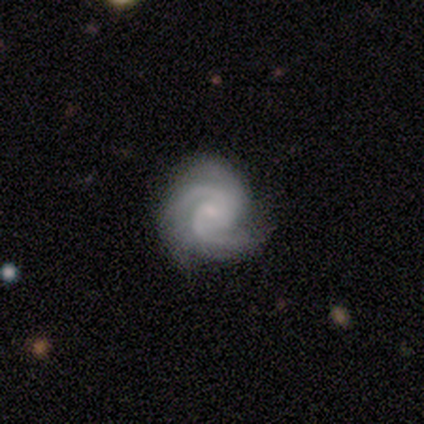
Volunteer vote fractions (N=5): Q: Smooth or featured?
A: featured or disk (100%)
Q: Edge-on disk?
A: no (100%)
Q: Bar?
A: weak (80%); runner-up: no (20%)
Q: Spiral arms?
A: yes (100%)
Q: Spiral winding?
A: medium (100%)
Q: Spiral arm count?
A: 2 (60%); runner-up: 3 (40%)
Q: Bulge size?
A: small (100%)
Q: Merging?
A: none (100%)